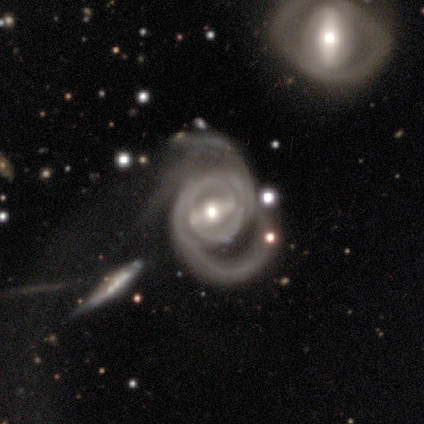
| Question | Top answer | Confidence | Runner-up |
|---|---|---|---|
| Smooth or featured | featured or disk | 95% | star or artifact (5%) |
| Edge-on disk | no | 97% | yes (3%) |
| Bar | strong | 71% | weak (24%) |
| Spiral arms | yes | 97% | no (3%) |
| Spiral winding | medium | 54% | tight (41%) |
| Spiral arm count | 2 | 65% | 3 (16%) |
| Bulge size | moderate | 61% | large (21%) |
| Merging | major disturbance | 64% | none (15%) |